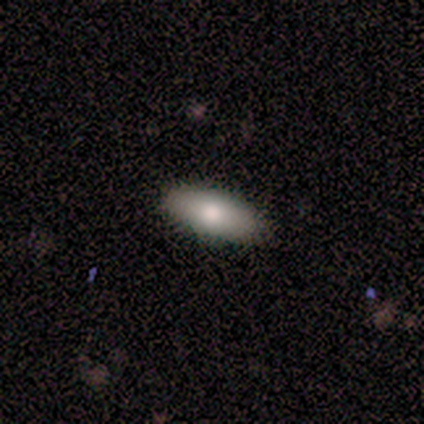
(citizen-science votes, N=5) Smooth or featured: smooth — 60% (featured or disk — 40%)
How rounded: cigar-shaped — 67% (in between — 33%)
Merging: none — 100%